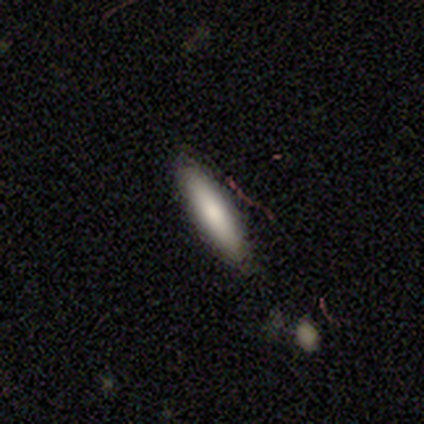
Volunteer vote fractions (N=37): A smooth galaxy with no disk features (84%) that is cigar-shaped (68%).

Vote fractions:
- Smooth or featured? smooth: 84% / featured or disk: 14% / star or artifact: 3%
- How rounded? cigar-shaped: 68% / in between: 32% / round: 0%
- Merging? none: 83% / minor disturbance: 17% / major disturbance: 0% / merger: 0%